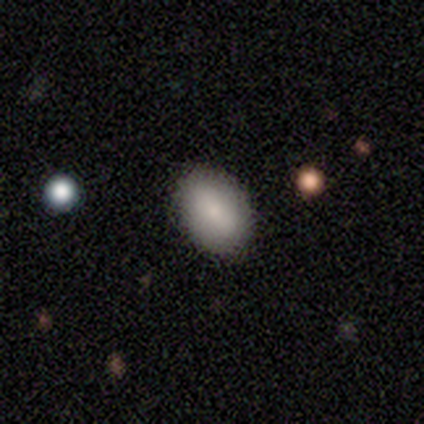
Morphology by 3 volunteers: Smooth or featured: smooth — 100%
How rounded: in between — 67% (round — 33%)
Merging: none — 100%